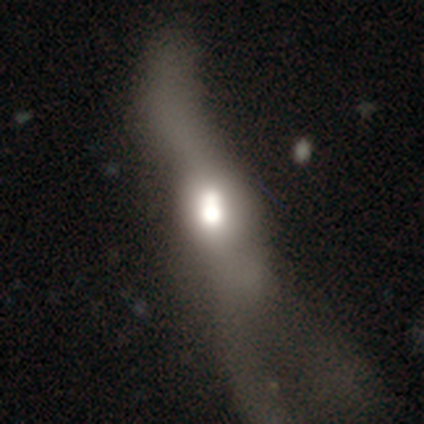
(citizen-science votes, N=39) Morphology: type=smooth (51%); roundness=in between (45%); merging=major disturbance (56%).